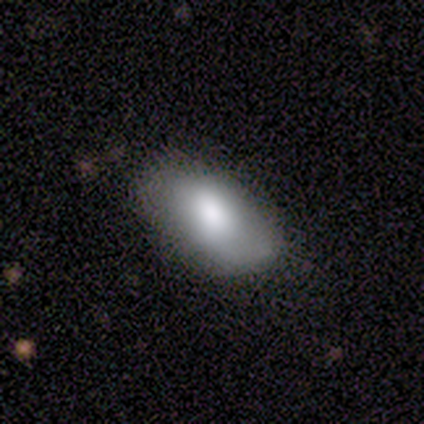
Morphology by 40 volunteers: smooth_or_featured: smooth (p=0.88) [alt: featured or disk p=0.07]
how_rounded: in between (p=0.97) [alt: cigar-shaped p=0.03]
merging: none (p=0.47) [alt: minor disturbance p=0.32]